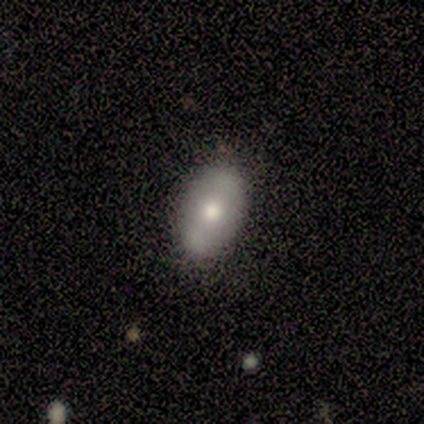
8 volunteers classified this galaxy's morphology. Q: Smooth or featured?
A: smooth (50%); runner-up: featured or disk (38%)
Q: How rounded?
A: in between (75%); runner-up: round (25%)
Q: Merging?
A: none (100%)